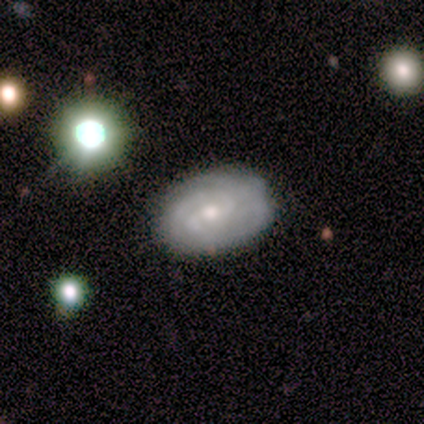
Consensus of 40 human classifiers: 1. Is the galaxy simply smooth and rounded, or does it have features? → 68% featured or disk, 30% smooth, 2% star or artifact.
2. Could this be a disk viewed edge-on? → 96% no, 4% yes.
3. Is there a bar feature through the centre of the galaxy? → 54% weak, 35% no, 12% strong.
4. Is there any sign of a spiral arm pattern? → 100% yes, 0% no.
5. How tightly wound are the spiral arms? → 81% tight, 19% medium, 0% loose.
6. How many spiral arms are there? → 54% 2, 19% 3, 19% can't tell, 4% 4, 4% more than 4, 0% 1.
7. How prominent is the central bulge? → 65% moderate, 27% small, 4% large, 4% none, 0% dominant.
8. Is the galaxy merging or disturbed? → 77% none, 18% minor disturbance, 5% major disturbance, 0% merger.